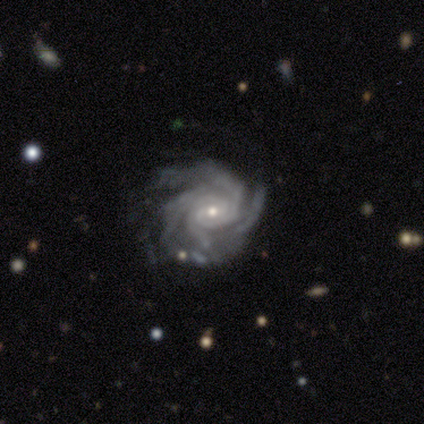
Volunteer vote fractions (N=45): This is clearly a featured or disk galaxy (89%). It is clearly not viewed edge-on (100%). Bar: likely no (60%). Spiral arm pattern: clearly yes (100%). Spiral arm count: possibly 4 (48%). Spiral winding: likely tight (72%). Central bulge: likely small (72%). Merging: likely none (65%).